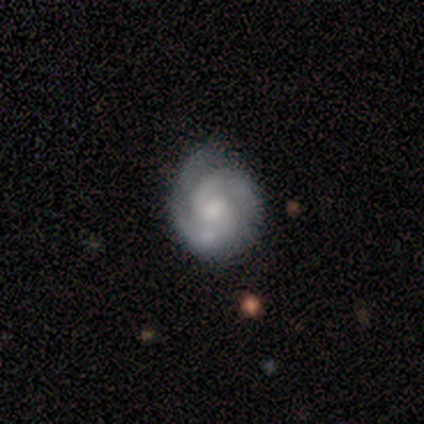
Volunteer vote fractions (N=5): A featured or disk galaxy (80%) with a weak bar (50%, tied with no), 3 (75%) tight (75%) spiral arms (100%) and a moderate central bulge (50%).

Vote fractions:
- Smooth or featured? featured or disk: 80% / smooth: 20% / star or artifact: 0%
- Edge-on disk? no: 100% / yes: 0%
- Bar? weak: 50% (tied) / no: 50% (tied) / strong: 0%
- Spiral arms? yes: 100% / no: 0%
- Spiral winding? tight: 75% / medium: 25% / loose: 0%
- Spiral arm count? 3: 75% / 2: 25% / 1: 0% / 4: 0% / more than 4: 0% / can't tell: 0%
- Bulge size? moderate: 50% / large: 25% / small: 25% / dominant: 0% / none: 0%
- Merging? none: 80% / minor disturbance: 20% / major disturbance: 0% / merger: 0%